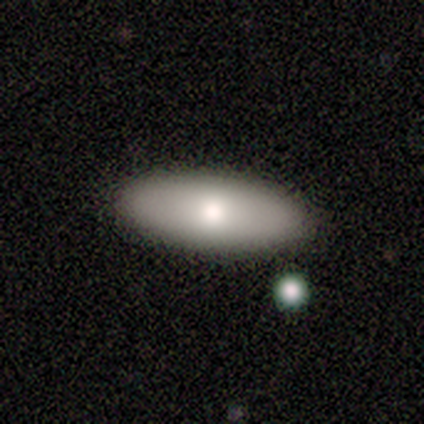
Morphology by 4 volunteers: Smooth or featured?
  - smooth: 100% *
  - featured or disk: 0%
  - star or artifact: 0%
How rounded?
  - in between: 100% *
  - round: 0%
  - cigar-shaped: 0%
Merging?
  - none: 75% *
  - merger: 25%
  - minor disturbance: 0%
  - major disturbance: 0%